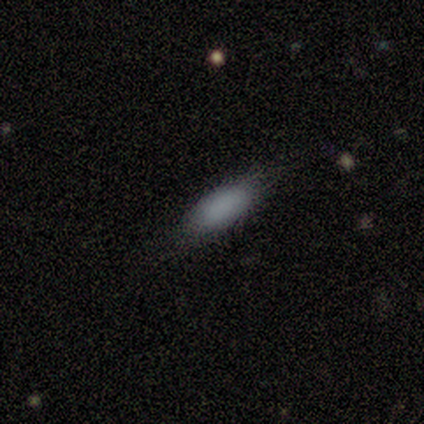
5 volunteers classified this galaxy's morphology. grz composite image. It shows a smooth galaxy with no disk features (100%) that is in between round and cigar-shaped (80%). Merging: none (60%).